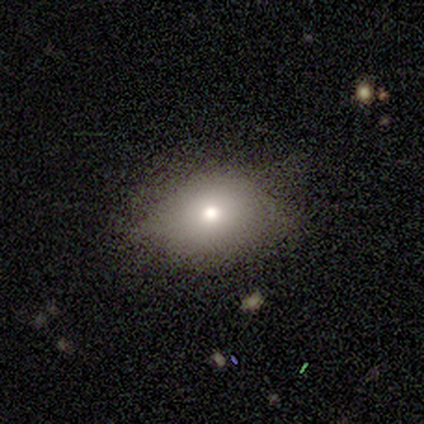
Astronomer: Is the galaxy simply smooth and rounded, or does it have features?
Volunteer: smooth — 74%.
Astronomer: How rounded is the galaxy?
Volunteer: in between — 59% (runner-up: round, 41%).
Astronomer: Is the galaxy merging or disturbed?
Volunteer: none — 79%.